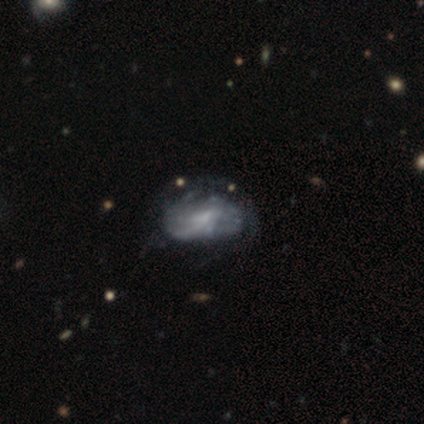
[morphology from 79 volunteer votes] A featured or disk galaxy (71%) with no bar (59%), medium (52%) spiral arms (50%, tied with no) and a small central bulge (48%).

Vote fractions:
- Smooth or featured? featured or disk: 71% / smooth: 28% / star or artifact: 1%
- Edge-on disk? no: 96% / yes: 4%
- Bar? no: 59% / weak: 37% / strong: 4%
- Spiral arms? yes: 50% (tied) / no: 50% (tied)
- Spiral winding? medium: 52% / tight: 30% / loose: 19%
- Spiral arm count? can't tell: 63% / 2: 15% / 3: 15% / 1: 4% / 4: 4% / more than 4: 0%
- Bulge size? small: 48% / none: 37% / moderate: 15% / dominant: 0% / large: 0%
- Merging? none: 21% / minor disturbance: 15% / major disturbance: 13% / merger: 3%